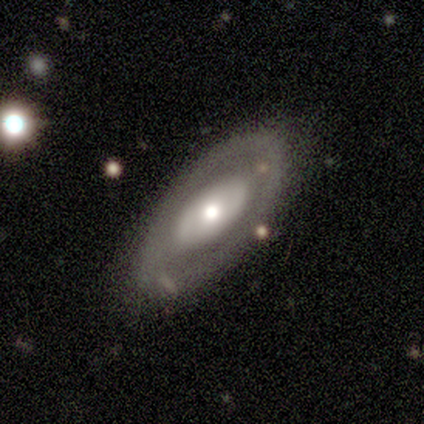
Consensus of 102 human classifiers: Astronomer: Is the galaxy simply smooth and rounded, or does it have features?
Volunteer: featured or disk — 72%.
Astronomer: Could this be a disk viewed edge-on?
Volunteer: no — 86%.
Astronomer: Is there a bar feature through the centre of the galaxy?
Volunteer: no — 81%.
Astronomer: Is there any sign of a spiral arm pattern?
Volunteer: no — 78%.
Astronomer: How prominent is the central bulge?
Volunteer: moderate — 57%.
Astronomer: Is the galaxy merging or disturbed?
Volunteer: none — 72%.